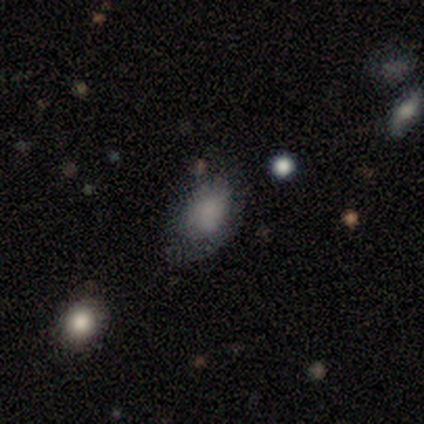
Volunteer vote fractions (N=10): smooth_or_featured: smooth (p=0.80) [alt: featured or disk p=0.10]
how_rounded: in between (p=1.00)
merging: none (p=0.67) [alt: minor disturbance p=0.33]